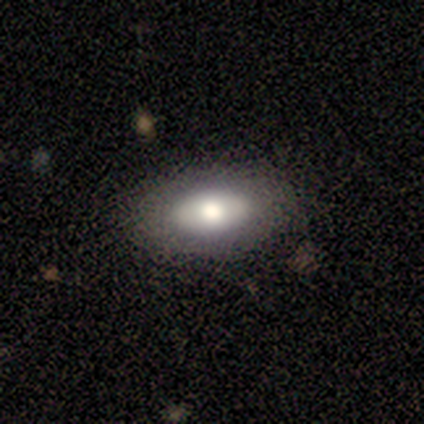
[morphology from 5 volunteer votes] Smooth or featured? 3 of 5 (60%) said featured or disk. Edge-on disk? 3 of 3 (100%) said no. Bar? 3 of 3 (100%) said no. Spiral arms? 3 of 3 (100%) said no. Bulge size? 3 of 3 (100%) said moderate. Merging? 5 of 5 (100%) said none.